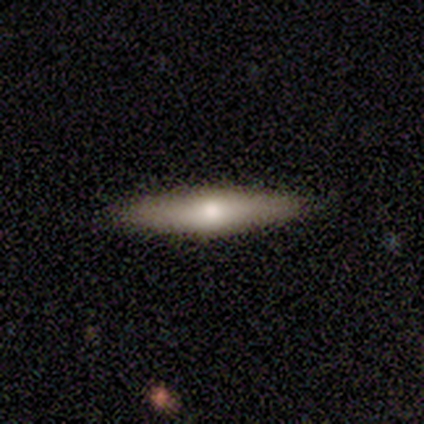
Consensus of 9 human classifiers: A featured or disk galaxy (67%) viewed edge-on (100%) with a rounded central bulge (100%). Merging: none (89%).